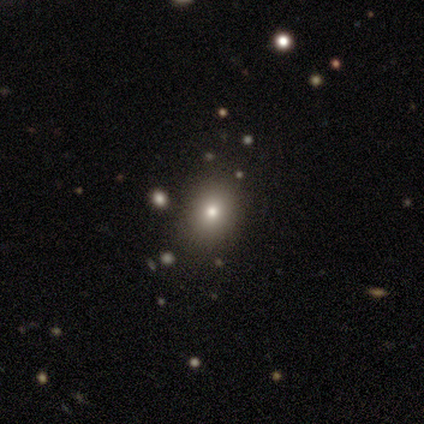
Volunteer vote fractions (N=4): A smooth galaxy with no disk features (100%) that is round (100%). Merging: none (75%).